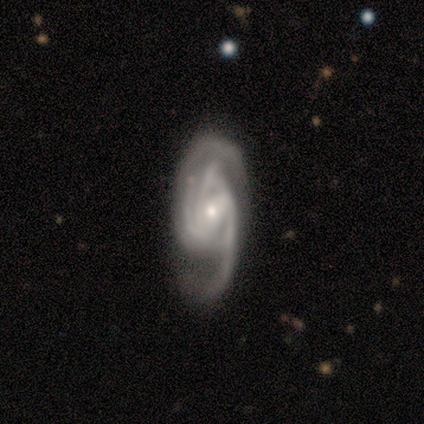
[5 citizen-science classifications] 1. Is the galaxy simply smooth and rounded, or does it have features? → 100% featured or disk, 0% smooth, 0% star or artifact.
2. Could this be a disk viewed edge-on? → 100% no, 0% yes.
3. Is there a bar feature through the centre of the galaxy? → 60% weak, 20% strong, 20% no.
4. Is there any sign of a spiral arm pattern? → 100% yes, 0% no.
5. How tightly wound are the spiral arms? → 40% tight (tied), 40% medium (tied), 20% loose.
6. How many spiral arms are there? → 80% 2, 20% 4, 0% 1, 0% 3, 0% more than 4, 0% can't tell.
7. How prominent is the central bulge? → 80% moderate, 20% small, 0% dominant, 0% large, 0% none.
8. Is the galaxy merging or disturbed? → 60% none, 20% minor disturbance, 20% major disturbance, 0% merger.